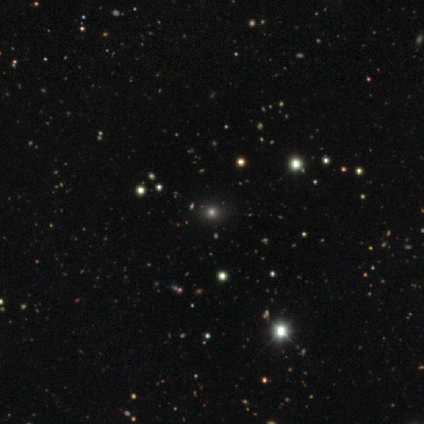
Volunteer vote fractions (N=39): A star or artifact, not a galaxy (72%).